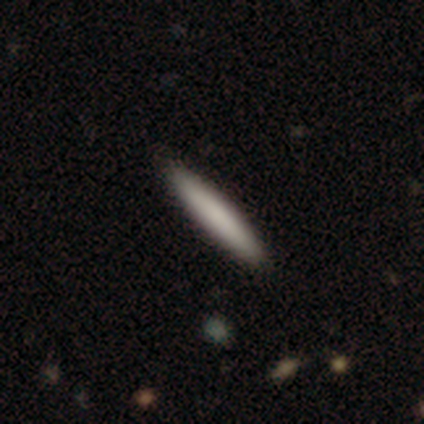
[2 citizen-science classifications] Consensus on every question: smooth or featured — smooth (100%); how rounded — cigar-shaped (100%); merging — none (100%).